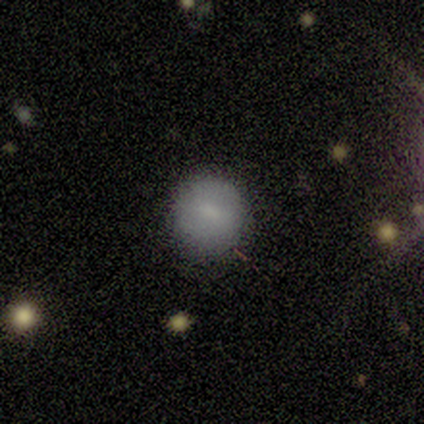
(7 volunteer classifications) This is clearly a smooth galaxy (86%). How rounded: clearly round (100%). Merging: clearly none (86%).